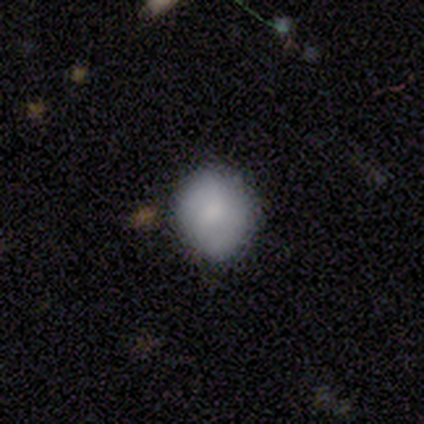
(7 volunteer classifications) This is likely a smooth galaxy (71%). How rounded: clearly round (100%). Merging: clearly none (86%).